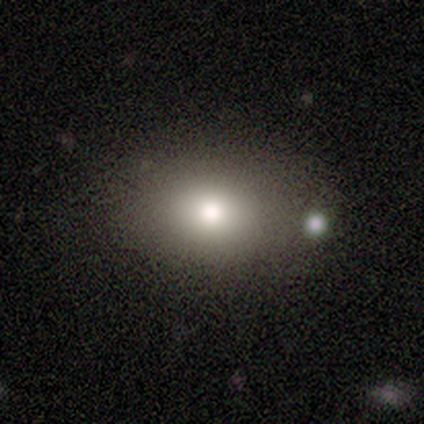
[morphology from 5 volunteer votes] type=smooth (60%); roundness=round (67%); merging=none (75%).